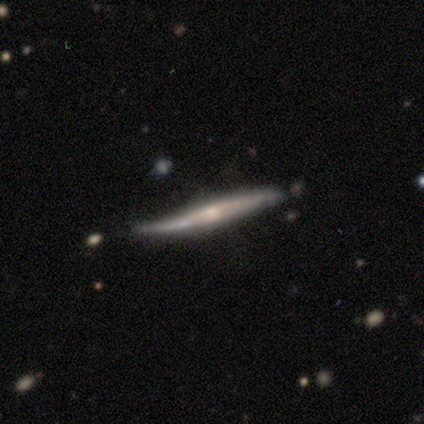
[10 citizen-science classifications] This appears to be a featured or disk galaxy (70%) viewed edge-on (100%) with a rounded central bulge (57%). Merging: none (50%, tied with minor disturbance).